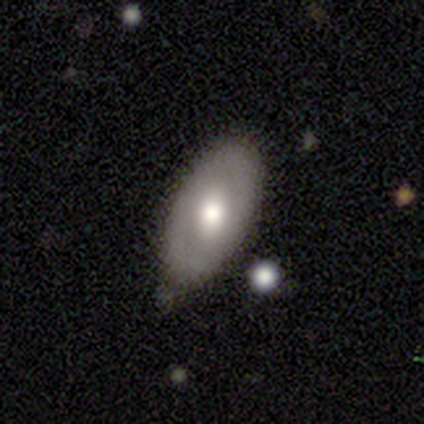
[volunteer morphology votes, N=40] Overall: featured or disk (55%; smooth 38%). Edge-on disk: no (100%). Bar: no (68%). Spiral arms: yes (55%; no 45%). Spiral arm count: 2 (75%). Spiral winding: tight (42%, tied with medium). Bulge size: moderate (77%). Merging: none (84%).